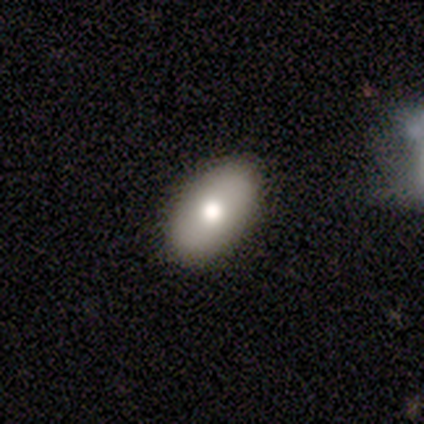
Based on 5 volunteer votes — Smooth or featured: smooth — 60% (star or artifact — 40%)
How rounded: in between — 100%
Merging: none — 100%